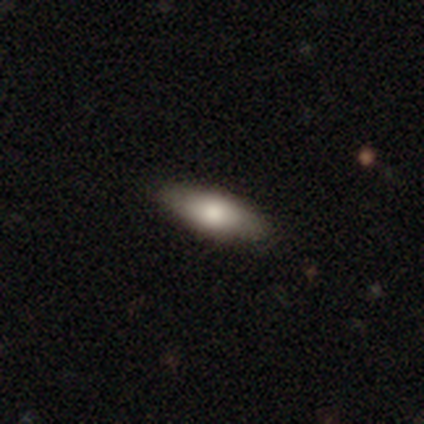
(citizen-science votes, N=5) Smooth or featured? smooth (80%)
How rounded? cigar-shaped (75%)
Merging? none (100%)